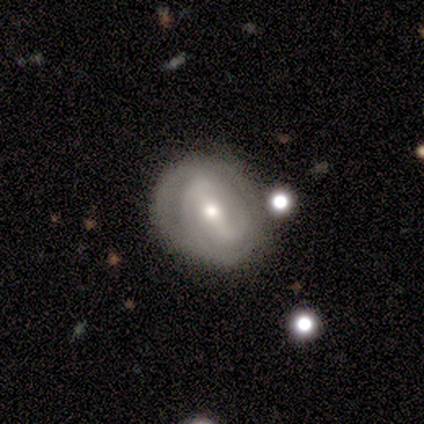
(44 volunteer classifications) This appears to be a featured or disk galaxy (82%) with a strong bar (53%), 2 (67%) tight (67%) spiral arms (79%) and a moderate central bulge (74%). Merging: none (52%).